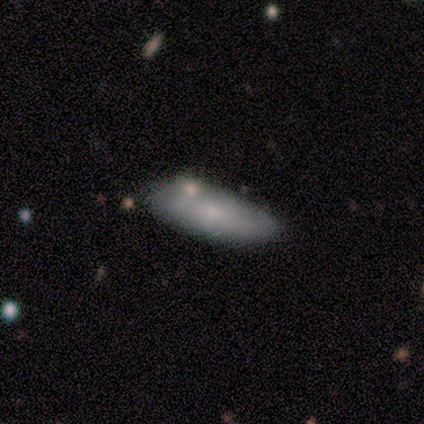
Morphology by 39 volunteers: This appears to be a smooth galaxy with no disk features (72%) that is in between round and cigar-shaped (71%). Merging: none (73%).